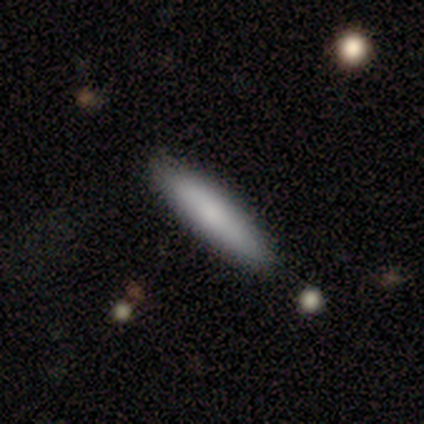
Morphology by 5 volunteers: Q: Smooth or featured?
A: smooth (80%); runner-up: star or artifact (20%)
Q: How rounded?
A: in between (75%); runner-up: cigar-shaped (25%)
Q: Merging?
A: none (75%); runner-up: minor disturbance (25%)